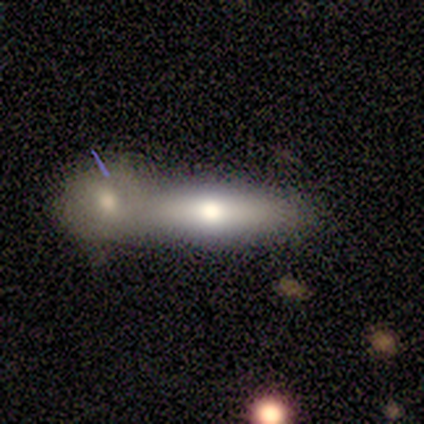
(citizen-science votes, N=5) Smooth or featured? smooth (60%)
How rounded? cigar-shaped (67%)
Merging? merger (80%)